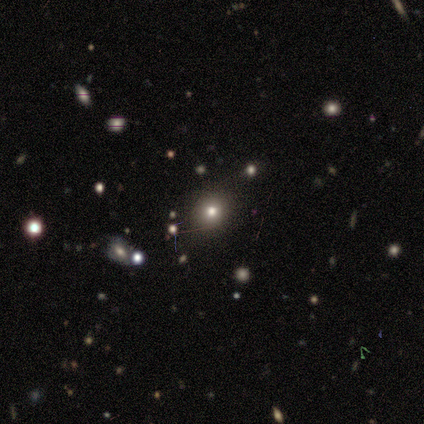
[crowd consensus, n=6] Smooth or featured? 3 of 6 (50%, tied with star or artifact) said smooth. How rounded? 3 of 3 (100%) said round. Merging? 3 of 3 (100%) said none.